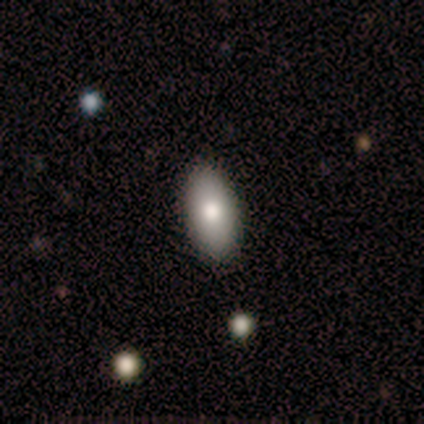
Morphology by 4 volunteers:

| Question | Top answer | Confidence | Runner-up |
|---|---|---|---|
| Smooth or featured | smooth | 100% | — |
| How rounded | in between | 100% | — |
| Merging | none | 75% | minor disturbance (25%) |